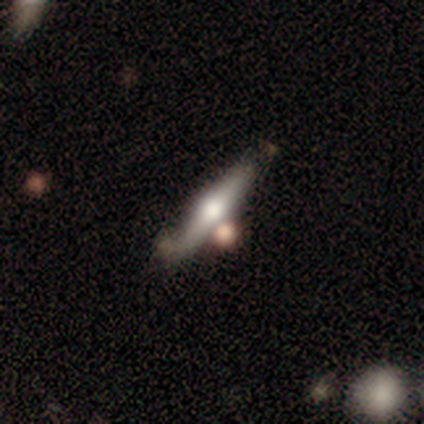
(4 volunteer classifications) smooth-or-featured: smooth: 50% (tied) | featured or disk: 50% (tied) | star or artifact: 0%
  how-rounded: cigar-shaped: 100% | round: 0% | in between: 0%
  merging: merger: 50% | none: 25% | minor disturbance: 25% | major disturbance: 0%